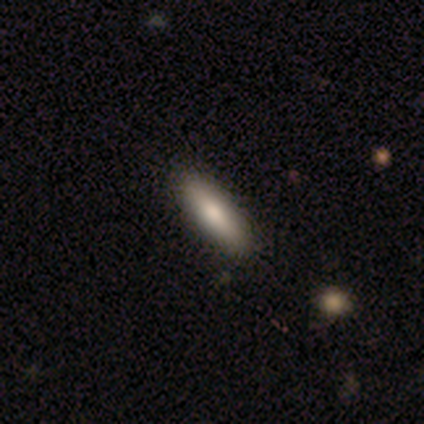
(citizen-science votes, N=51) smooth-or-featured: smooth: 76% | featured or disk: 22% | star or artifact: 2%
  how-rounded: cigar-shaped: 51% | in between: 49% | round: 0%
  merging: none: 98% | major disturbance: 2% | minor disturbance: 0% | merger: 0%